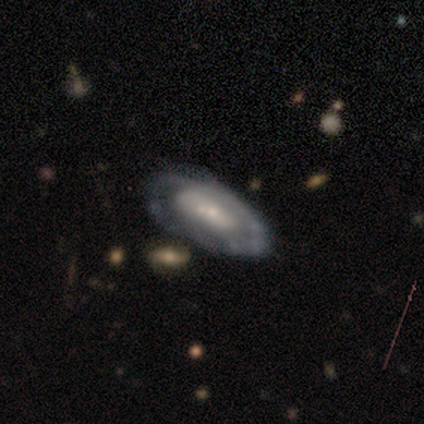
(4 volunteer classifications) Smooth or featured?
  - featured or disk: 100% *
  - smooth: 0%
  - star or artifact: 0%
Edge-on disk?
  - no: 100% *
  - yes: 0%
Bar?
  - no: 100% *
  - strong: 0%
  - weak: 0%
Spiral arms?
  - yes: 50% * (tied)
  - no: 50% * (tied)
Spiral winding?
  - tight: 50% * (tied)
  - medium: 50% * (tied)
  - loose: 0%
Spiral arm count?
  - 1: 50% * (tied)
  - can't tell: 50% * (tied)
  - 2: 0%
  - 3: 0%
  - 4: 0%
  - more than 4: 0%
Bulge size?
  - moderate: 50% * (tied)
  - small: 50% * (tied)
  - dominant: 0%
  - large: 0%
  - none: 0%
Merging?
  - none: 50% *
  - minor disturbance: 25%
  - merger: 25%
  - major disturbance: 0%